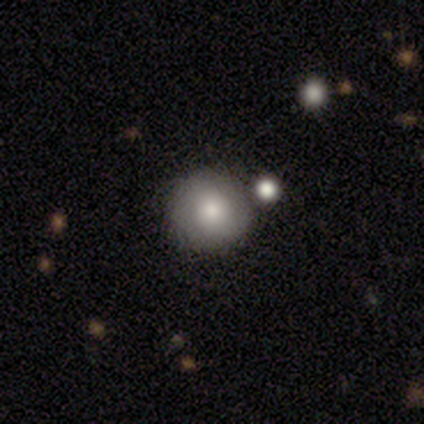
smooth 78%, featured or disk 15%, star or artifact 8%. Down the decision tree: how rounded — round (100%); merging — none (92%).